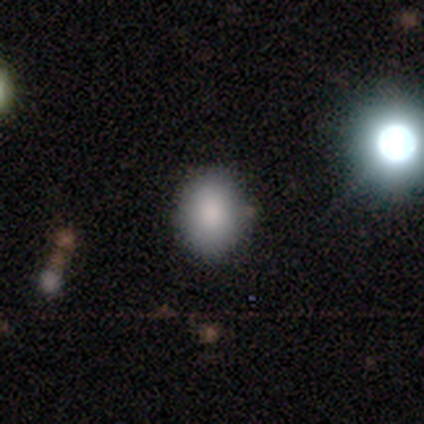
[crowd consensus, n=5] Smooth or featured? 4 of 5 (80%) said smooth. How rounded? 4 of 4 (100%) said round. Merging? 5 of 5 (100%) said none.